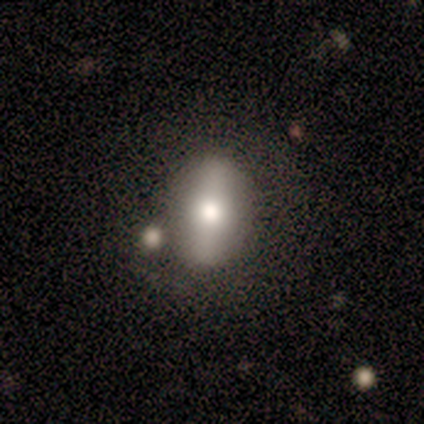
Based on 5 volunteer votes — Q: Smooth or featured?
A: smooth (100%)
Q: How rounded?
A: in between (100%)
Q: Merging?
A: none (60%); runner-up: major disturbance (20%)